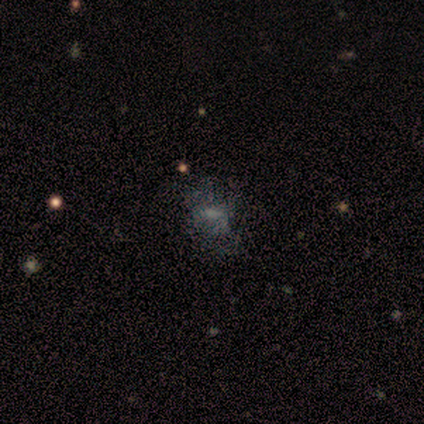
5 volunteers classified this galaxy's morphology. Smooth or featured?
  - smooth: 60% *
  - featured or disk: 40%
  - star or artifact: 0%
How rounded?
  - in between: 100% *
  - round: 0%
  - cigar-shaped: 0%
Merging?
  - none: 60% *
  - major disturbance: 40%
  - minor disturbance: 0%
  - merger: 0%